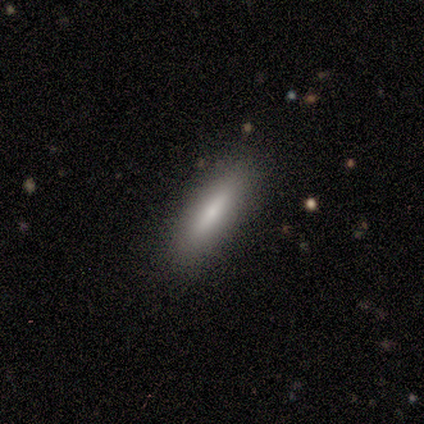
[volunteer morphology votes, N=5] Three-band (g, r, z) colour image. It shows a smooth galaxy with no disk features (60%) that is in between round and cigar-shaped (67%). Merging: none (80%).